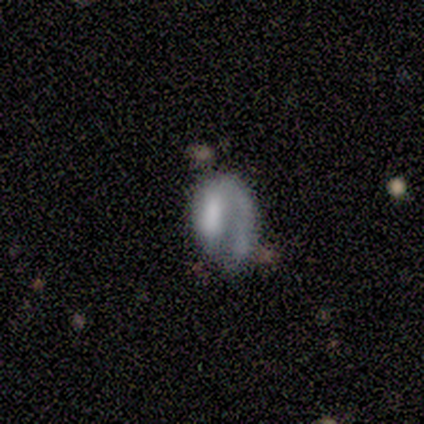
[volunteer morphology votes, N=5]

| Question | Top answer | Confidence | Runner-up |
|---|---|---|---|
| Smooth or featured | featured or disk | 80% | smooth (20%) |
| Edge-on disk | no | 100% | — |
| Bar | no | 75% | strong (25%) |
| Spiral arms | yes | 50% | tied: no (50%) |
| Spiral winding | tight | 50% | tied: medium (50%) |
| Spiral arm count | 1 | 100% | — |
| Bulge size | none | 50% | moderate (25%) |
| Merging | none | 40% | tied: major disturbance (40%) |